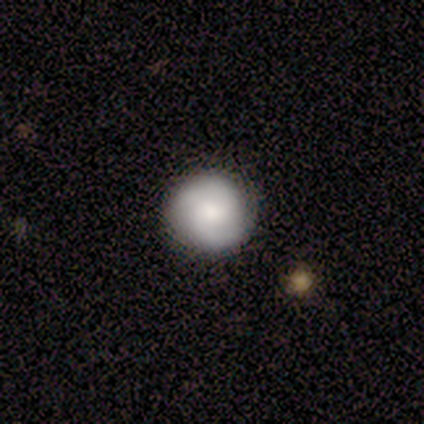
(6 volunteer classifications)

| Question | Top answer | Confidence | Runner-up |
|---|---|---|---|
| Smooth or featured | smooth | 50% | tied: featured or disk (50%) |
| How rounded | round | 100% | — |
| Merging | none | 67% | minor disturbance (33%) |